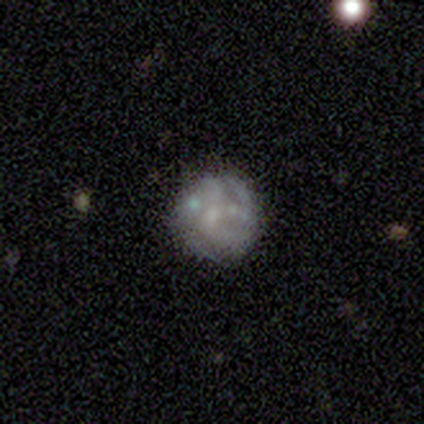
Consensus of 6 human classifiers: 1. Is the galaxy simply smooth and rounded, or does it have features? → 67% featured or disk, 33% smooth, 0% star or artifact.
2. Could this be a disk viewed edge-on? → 100% no, 0% yes.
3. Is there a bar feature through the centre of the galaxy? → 100% no, 0% strong, 0% weak.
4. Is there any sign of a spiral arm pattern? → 75% no, 25% yes.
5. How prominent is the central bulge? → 50% none, 25% moderate, 25% small, 0% dominant, 0% large.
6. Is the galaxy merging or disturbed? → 83% none, 17% merger, 0% minor disturbance, 0% major disturbance.